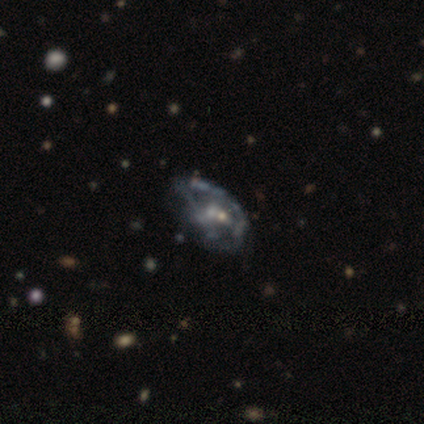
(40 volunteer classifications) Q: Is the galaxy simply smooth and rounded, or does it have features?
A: featured or disk — 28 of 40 (70%).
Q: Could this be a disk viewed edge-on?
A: no — 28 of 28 (100%).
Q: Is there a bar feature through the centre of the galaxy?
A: no — 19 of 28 (68%).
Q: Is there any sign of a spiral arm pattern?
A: no — 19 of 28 (68%).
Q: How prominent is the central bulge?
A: small — 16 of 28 (57%).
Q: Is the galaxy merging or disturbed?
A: major disturbance — 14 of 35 (40%).